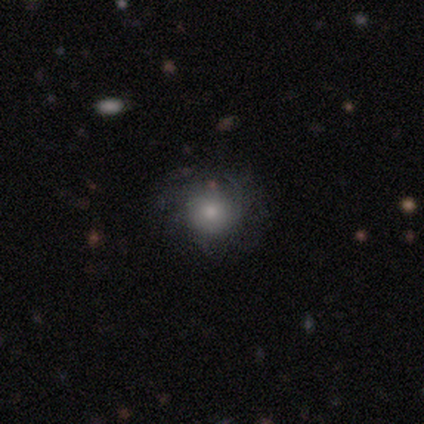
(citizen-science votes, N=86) Volunteers were most divided on "smooth or featured": smooth: 58%, featured or disk: 34%, star or artifact: 8%. More confident: how rounded — round (90%); merging — none (75%).